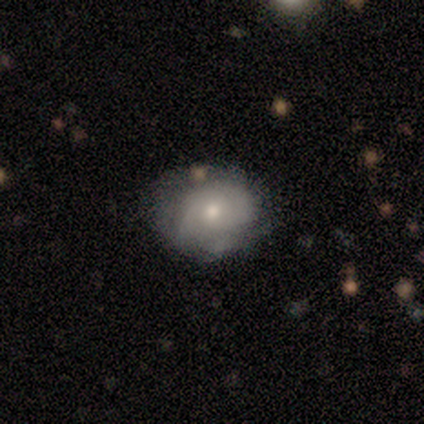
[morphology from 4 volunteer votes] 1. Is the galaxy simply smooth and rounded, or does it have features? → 75% smooth, 25% featured or disk, 0% star or artifact.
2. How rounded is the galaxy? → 67% in between, 33% round, 0% cigar-shaped.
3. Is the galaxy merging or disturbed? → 50% none (tied), 50% major disturbance (tied), 0% minor disturbance, 0% merger.